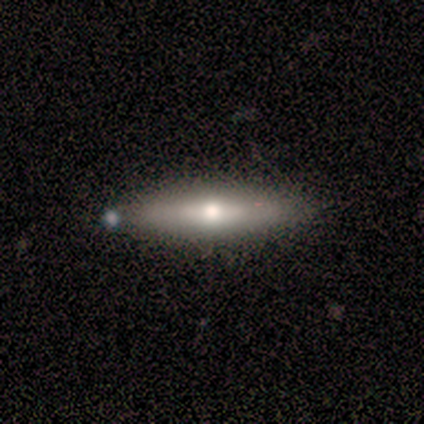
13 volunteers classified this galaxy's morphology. Q: Smooth or featured?
A: featured or disk (69%); runner-up: smooth (31%)
Q: Edge-on disk?
A: yes (100%)
Q: Edge-on bulge?
A: rounded (89%); runner-up: none (11%)
Q: Merging?
A: none (92%); runner-up: minor disturbance (8%)